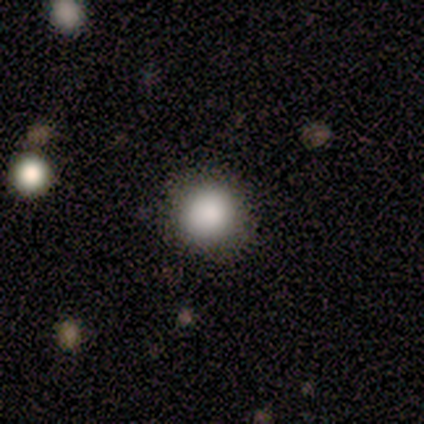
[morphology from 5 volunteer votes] A smooth galaxy with no disk features (80%) that is round (100%). Merging: none (100%).